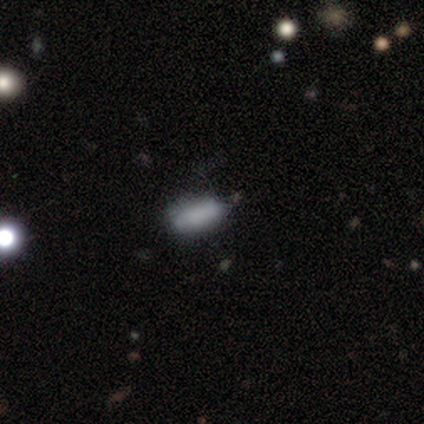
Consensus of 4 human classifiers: smooth 100%, featured or disk 0%, star or artifact 0%. Down the decision tree: how rounded — in between (100%); merging — none (75%).